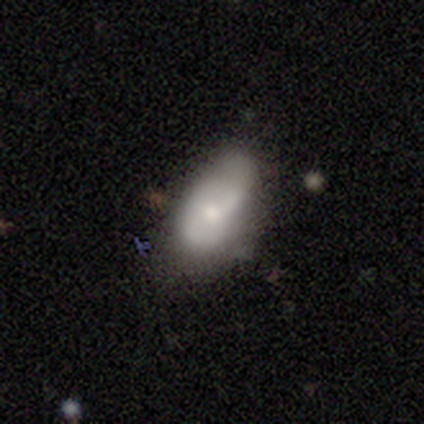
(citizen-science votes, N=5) smooth-or-featured: smooth: 60% | featured or disk: 40% | star or artifact: 0%
  how-rounded: in between: 100% | round: 0% | cigar-shaped: 0%
  merging: none: 60% | minor disturbance: 40% | major disturbance: 0% | merger: 0%